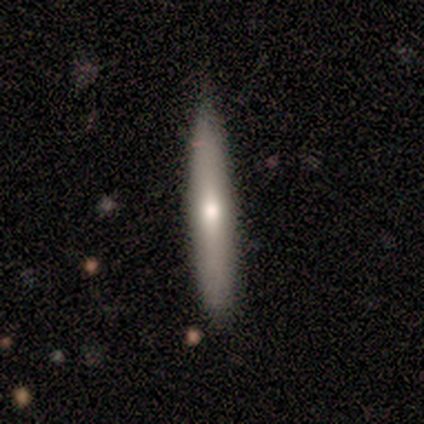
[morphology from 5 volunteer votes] Smooth or featured?
  - smooth: 80% *
  - star or artifact: 20%
  - featured or disk: 0%
How rounded?
  - in between: 50% * (tied)
  - cigar-shaped: 50% * (tied)
  - round: 0%
Merging?
  - none: 100% *
  - minor disturbance: 0%
  - major disturbance: 0%
  - merger: 0%